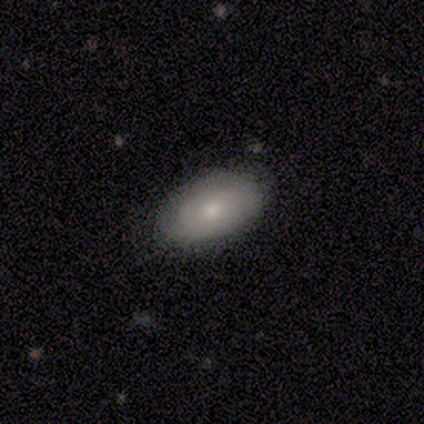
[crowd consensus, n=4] Smooth or featured: smooth — 75% (featured or disk — 25%)
How rounded: in between — 100%
Merging: none — 75% (major disturbance — 25%)